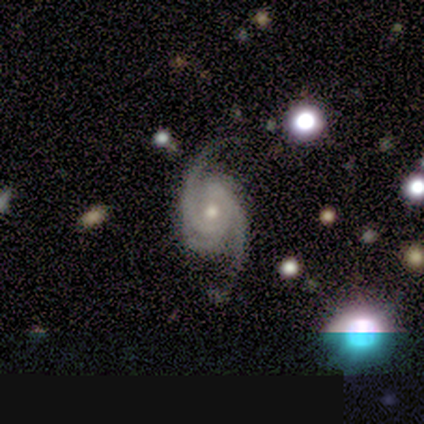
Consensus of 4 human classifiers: Q: Smooth or featured?
A: featured or disk (100%)
Q: Edge-on disk?
A: no (75%); runner-up: yes (25%)
Q: Bar?
A: strong (33%); tied with: weak (33%); no (33%)
Q: Spiral arms?
A: yes (100%)
Q: Spiral winding?
A: tight (33%); tied with: medium (33%); loose (33%)
Q: Spiral arm count?
A: 2 (67%); runner-up: 3 (33%)
Q: Bulge size?
A: moderate (67%); runner-up: small (33%)
Q: Merging?
A: none (50%); runner-up: minor disturbance (25%)